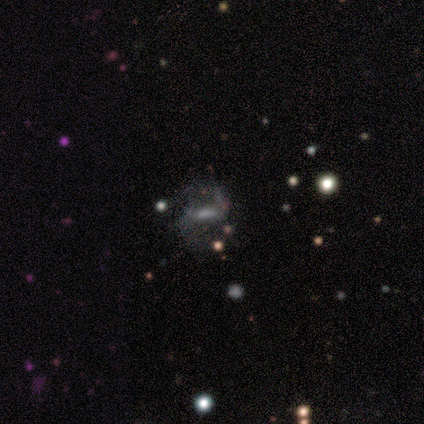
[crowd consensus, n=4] Smooth or featured? 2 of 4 (50%) said star or artifact.